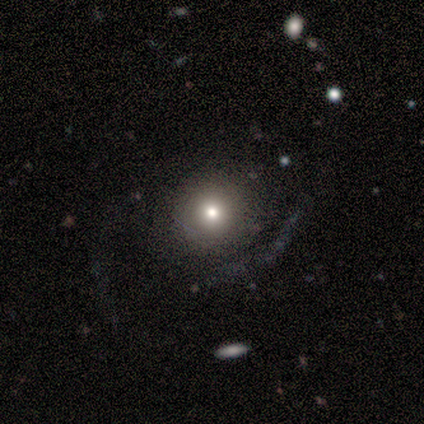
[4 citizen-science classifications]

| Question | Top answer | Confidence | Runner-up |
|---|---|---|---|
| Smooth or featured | smooth | 50% | tied: star or artifact (50%) |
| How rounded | round | 100% | — |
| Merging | none | 50% | tied: major disturbance (50%) |